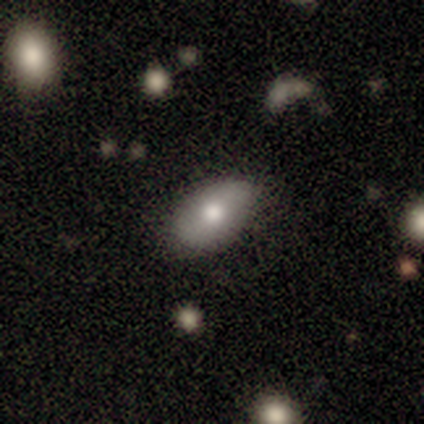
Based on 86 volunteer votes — Q: Smooth or featured?
A: smooth (62%); runner-up: featured or disk (30%)
Q: How rounded?
A: in between (96%); runner-up: round (2%)
Q: Merging?
A: none (75%); runner-up: minor disturbance (22%)